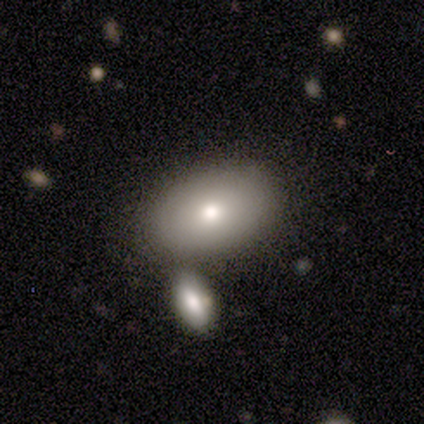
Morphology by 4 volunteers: A smooth galaxy with no disk features (50%) that is in between round and cigar-shaped (100%). Merging: none (33%, tied with major disturbance and merger).